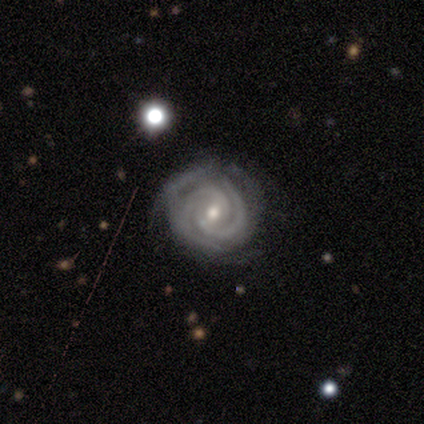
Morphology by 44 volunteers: Overall: featured or disk (95%). Edge-on disk: no (100%). Bar: weak (48%, tied with no). Spiral arms: yes (100%). Spiral arm count: 2 (71%). Spiral winding: tight (76%). Bulge size: moderate (69%; small 31%). Merging: none (52%; minor disturbance 19%).